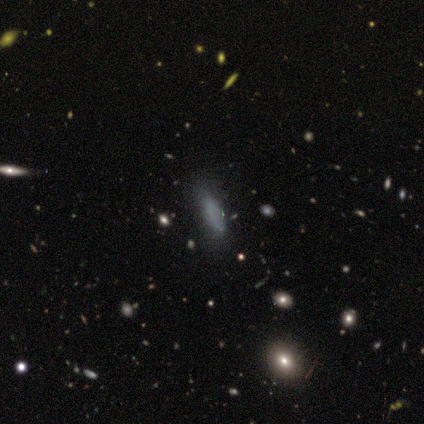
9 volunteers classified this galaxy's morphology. Smooth or featured?
  - smooth: 78% *
  - featured or disk: 11%
  - star or artifact: 11%
How rounded?
  - in between: 71% *
  - cigar-shaped: 29%
  - round: 0%
Merging?
  - none: 75% *
  - minor disturbance: 12%
  - major disturbance: 12%
  - merger: 0%